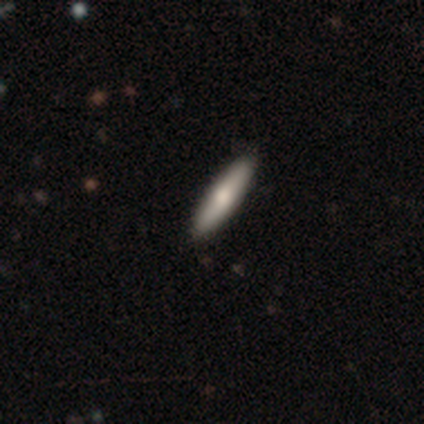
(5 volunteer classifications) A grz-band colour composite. It shows a smooth galaxy with no disk features (60%) that is cigar-shaped (100%). Merging: none (75%).